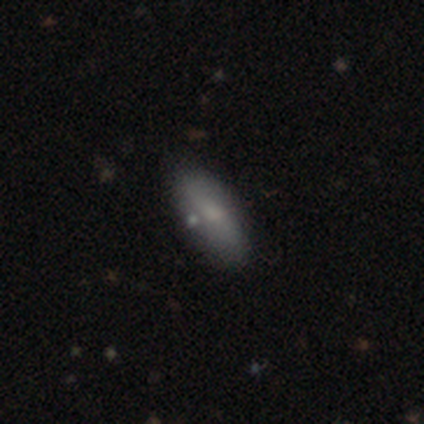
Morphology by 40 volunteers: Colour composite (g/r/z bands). It shows a smooth galaxy with no disk features (70%) that is in between round and cigar-shaped (64%). Merging: none (84%).